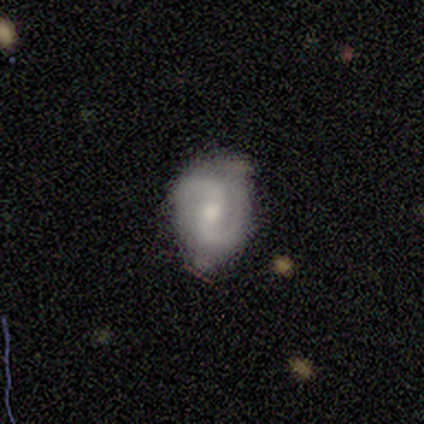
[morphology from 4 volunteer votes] Smooth or featured: featured or disk — 100%
Edge-on disk: no — 100%
Bar: no — 50% (strong — 25%)
Spiral arms: yes — 100%
Spiral winding: loose — 100%
Spiral arm count: 2 — 100%
Bulge size: small — 50% (large — 25%)
Merging: none — 100%